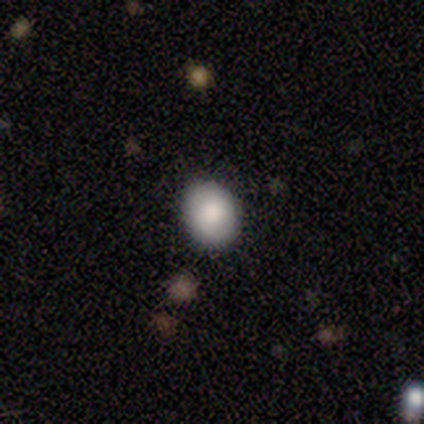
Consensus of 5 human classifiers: Consensus on every question: smooth or featured — smooth (100%); how rounded — round (100%); merging — none (100%).